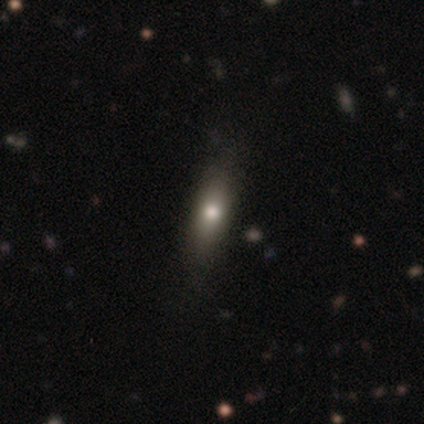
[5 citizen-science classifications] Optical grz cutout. It shows a smooth galaxy with no disk features (40%, tied with featured or disk) that is in between round and cigar-shaped (50%, tied with cigar-shaped). Merging: none (100%).